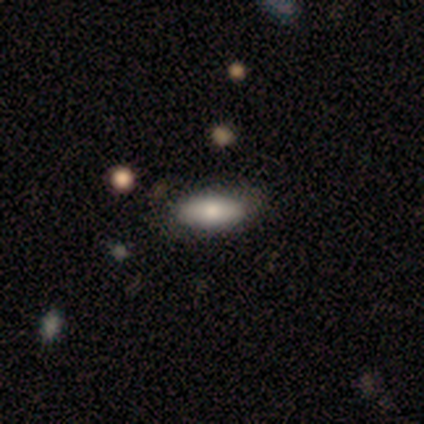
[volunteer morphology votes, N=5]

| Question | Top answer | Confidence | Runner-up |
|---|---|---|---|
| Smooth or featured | smooth | 100% | — |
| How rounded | in between | 80% | cigar-shaped (20%) |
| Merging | none | 60% | minor disturbance (40%) |